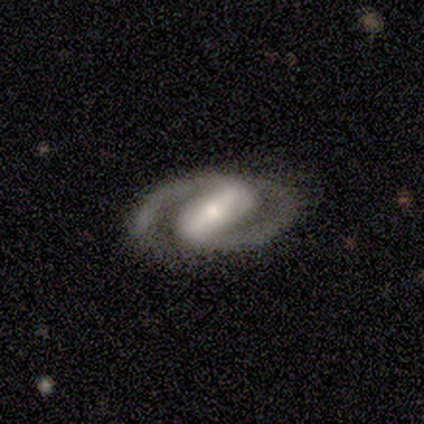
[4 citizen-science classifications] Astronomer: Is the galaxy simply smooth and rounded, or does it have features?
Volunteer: featured or disk — 100%.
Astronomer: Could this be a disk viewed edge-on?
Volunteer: no — 75%.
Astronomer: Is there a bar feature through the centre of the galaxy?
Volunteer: strong — 67%.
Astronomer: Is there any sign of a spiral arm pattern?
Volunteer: yes — 100%.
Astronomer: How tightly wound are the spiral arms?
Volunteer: medium — 100%.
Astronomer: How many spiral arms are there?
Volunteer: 2 — 100%.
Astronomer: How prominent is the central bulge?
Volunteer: moderate — 100%.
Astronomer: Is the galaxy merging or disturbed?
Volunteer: none — 100%.